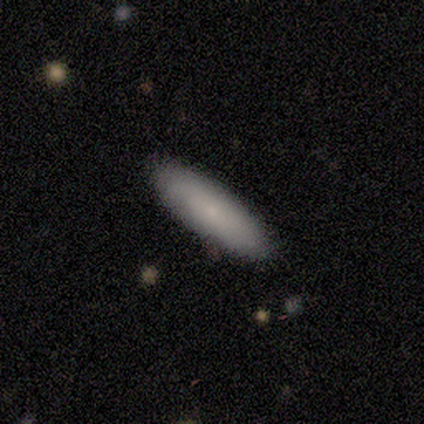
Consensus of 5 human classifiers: smooth-or-featured: smooth: 100% | featured or disk: 0% | star or artifact: 0%
  how-rounded: in between: 60% | cigar-shaped: 40% | round: 0%
  merging: none: 100% | minor disturbance: 0% | major disturbance: 0% | merger: 0%